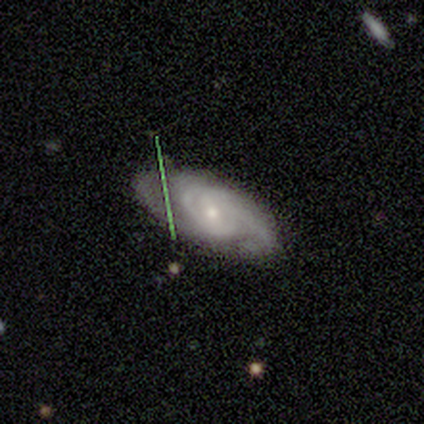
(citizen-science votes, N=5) smooth_or_featured: featured or disk (p=0.60) [alt: star or artifact p=0.40]
disk_edge_on: no (p=1.00)
bar: strong (p=0.67) [alt: weak p=0.33]
has_spiral_arms: yes (p=1.00)
spiral_winding: medium (p=0.67) [alt: tight p=0.33]
spiral_arm_count: 2 (p=0.67) [alt: 3 p=0.33]
bulge_size: moderate (p=1.00)
merging: none (p=0.67) [alt: minor disturbance p=0.33]